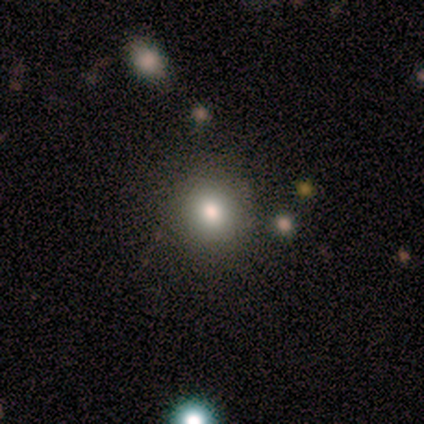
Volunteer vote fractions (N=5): smooth_or_featured: smooth (p=0.80) [alt: featured or disk p=0.20]
how_rounded: round (p=0.75) [alt: in between p=0.25]
merging: none (p=0.80) [alt: minor disturbance p=0.20]